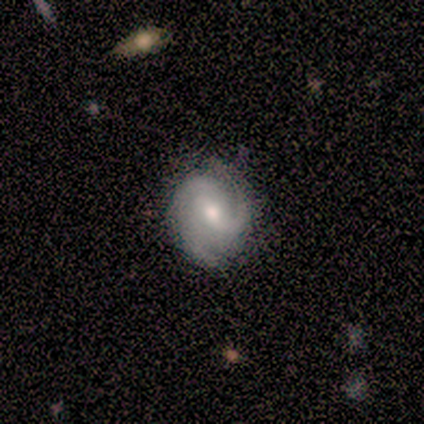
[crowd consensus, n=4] Smooth or featured?
  - featured or disk: 100% *
  - smooth: 0%
  - star or artifact: 0%
Edge-on disk?
  - no: 100% *
  - yes: 0%
Bar?
  - strong: 50% * (tied)
  - weak: 50% * (tied)
  - no: 0%
Spiral arms?
  - yes: 100% *
  - no: 0%
Spiral winding?
  - medium: 50% *
  - tight: 25%
  - loose: 25%
Spiral arm count?
  - 2: 75% *
  - can't tell: 25%
  - 1: 0%
  - 3: 0%
  - 4: 0%
  - more than 4: 0%
Bulge size?
  - moderate: 50% *
  - large: 25%
  - small: 25%
  - dominant: 0%
  - none: 0%
Merging?
  - none: 75% *
  - minor disturbance: 25%
  - major disturbance: 0%
  - merger: 0%